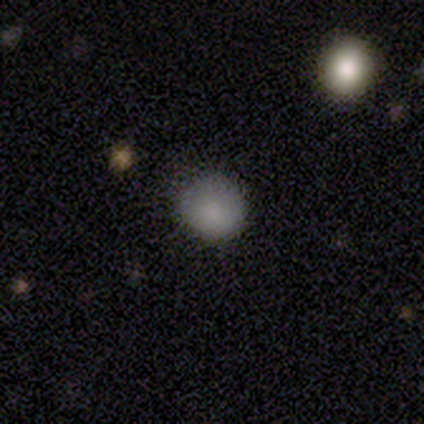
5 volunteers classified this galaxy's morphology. Smooth or featured?
  - smooth: 100% *
  - featured or disk: 0%
  - star or artifact: 0%
How rounded?
  - round: 100% *
  - in between: 0%
  - cigar-shaped: 0%
Merging?
  - none: 100% *
  - minor disturbance: 0%
  - major disturbance: 0%
  - merger: 0%